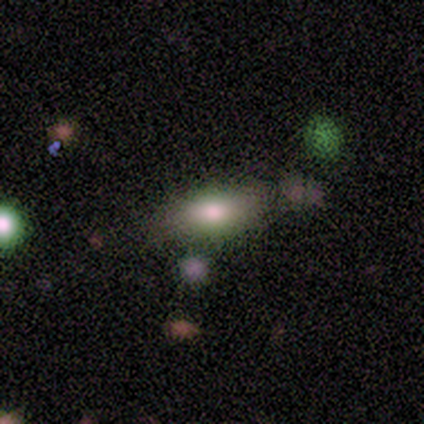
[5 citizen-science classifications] Morphology: type=smooth (80%); roundness=in between (75%); merging=none (80%).